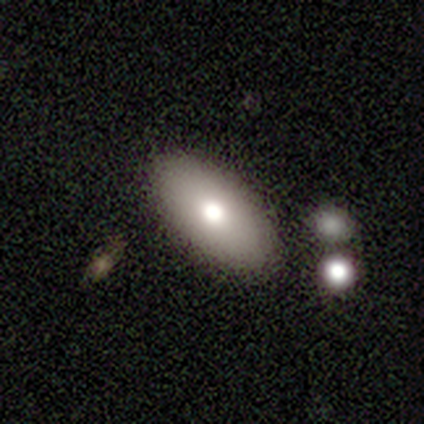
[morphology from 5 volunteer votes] Smooth or featured? 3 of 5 (60%) said smooth. How rounded? 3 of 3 (100%) said in between. Merging? 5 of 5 (100%) said none.